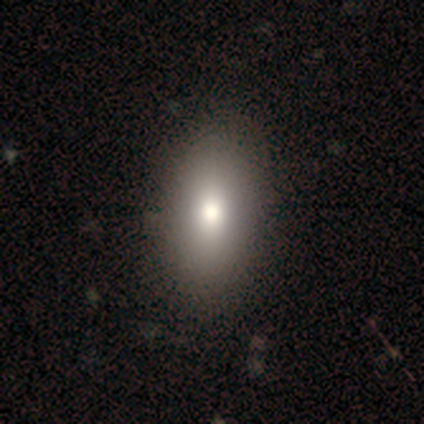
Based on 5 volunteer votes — A smooth galaxy with no disk features (100%) that is in between round and cigar-shaped (100%).

Vote fractions:
- Smooth or featured? smooth: 100% / featured or disk: 0% / star or artifact: 0%
- How rounded? in between: 100% / round: 0% / cigar-shaped: 0%
- Merging? none: 80% / minor disturbance: 20% / major disturbance: 0% / merger: 0%